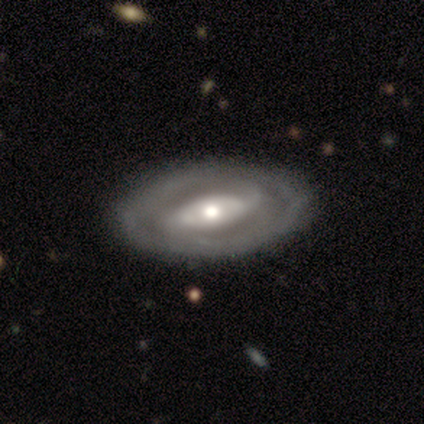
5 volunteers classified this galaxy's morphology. A featured or disk galaxy (60%) with no bar (67%), no spiral arms (67%) and a moderate central bulge (67%). Merging: none (100%).